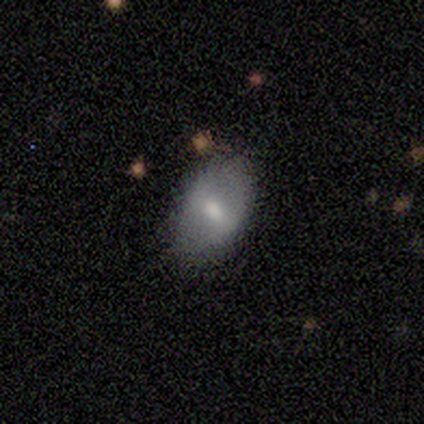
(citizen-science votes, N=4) A smooth galaxy with no disk features (50%, tied with featured or disk) that is in between round and cigar-shaped (100%).

Vote fractions:
- Smooth or featured? smooth: 50% (tied) / featured or disk: 50% (tied) / star or artifact: 0%
- How rounded? in between: 100% / round: 0% / cigar-shaped: 0%
- Merging? none: 100% / minor disturbance: 0% / major disturbance: 0% / merger: 0%